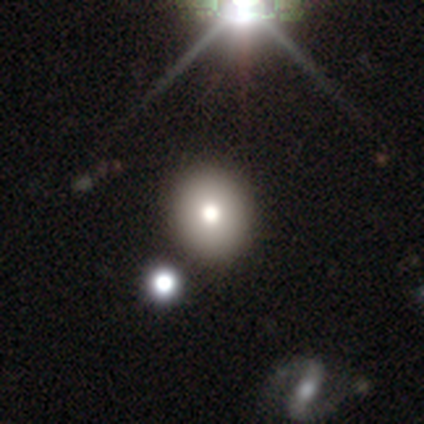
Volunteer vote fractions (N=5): Q: Smooth or featured?
A: smooth (80%); runner-up: star or artifact (20%)
Q: How rounded?
A: round (100%)
Q: Merging?
A: none (100%)